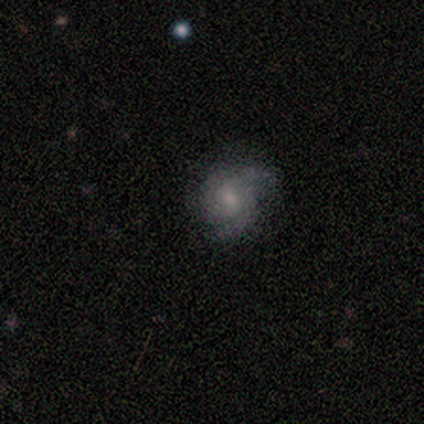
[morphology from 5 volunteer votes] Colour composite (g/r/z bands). It shows a featured or disk galaxy (80%) with no bar (100%), 2 (75%) tight (50%, tied with medium) spiral arms (100%) and a small central bulge (50%). Merging: none (80%).